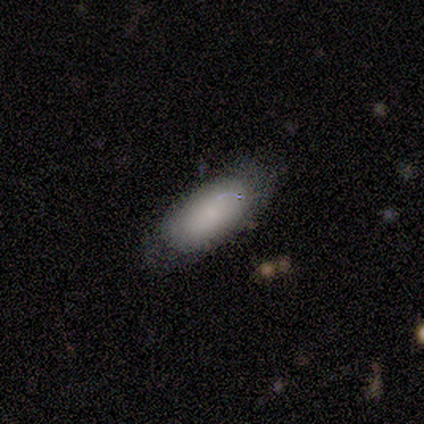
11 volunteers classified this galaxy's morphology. A smooth galaxy with no disk features (82%) that is in between round and cigar-shaped (78%). Merging: none (80%).